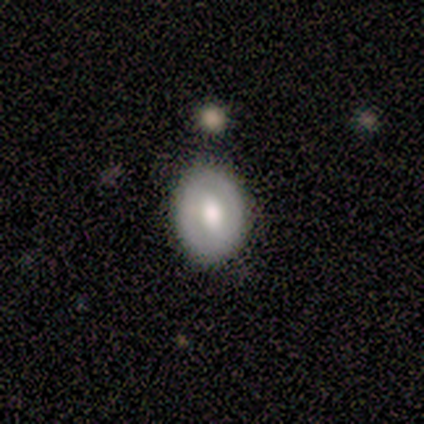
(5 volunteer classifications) Smooth or featured? 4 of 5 (80%) said featured or disk. Edge-on disk? 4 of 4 (100%) said no. Bar? 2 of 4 (50%) said no. Spiral arms? 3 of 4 (75%) said no. Bulge size? 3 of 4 (75%) said moderate. Merging? 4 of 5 (80%) said none.